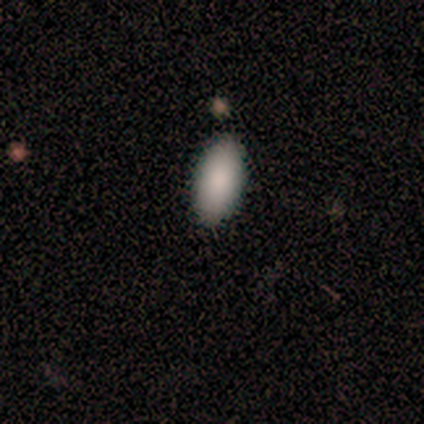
smooth_or_featured: smooth (p=0.50) [alt: featured or disk p=0.25]
how_rounded: in between (p=1.00)
merging: none (p=1.00)